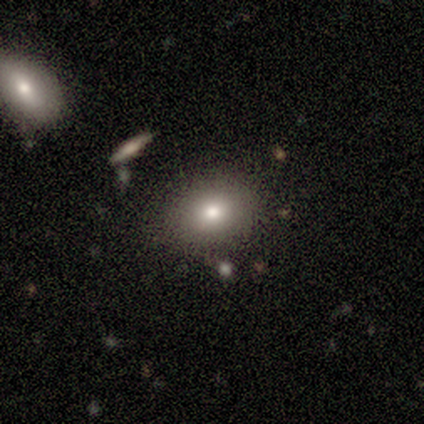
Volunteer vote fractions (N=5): Q: Smooth or featured?
A: smooth (100%)
Q: How rounded?
A: in between (60%); runner-up: round (40%)
Q: Merging?
A: none (100%)